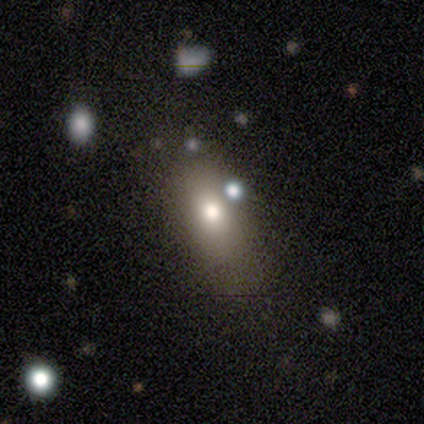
smooth_or_featured: smooth (p=0.40) [tied with: star or artifact p=0.40]
how_rounded: round (p=0.50) [tied with: in between p=0.50]
merging: none (p=0.67) [alt: minor disturbance p=0.33]